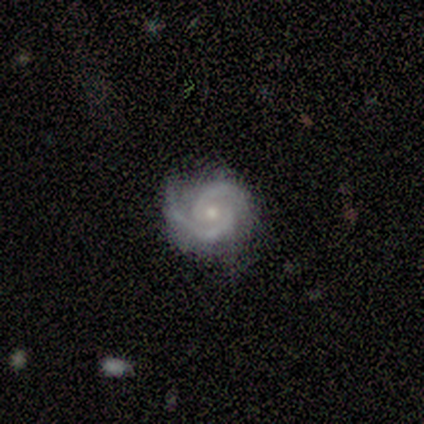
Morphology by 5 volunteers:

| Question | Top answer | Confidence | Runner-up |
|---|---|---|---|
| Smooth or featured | featured or disk | 80% | star or artifact (20%) |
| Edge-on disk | no | 100% | — |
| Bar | weak | 50% | tied: no (50%) |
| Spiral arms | yes | 100% | — |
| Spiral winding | tight | 75% | medium (25%) |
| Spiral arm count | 2 | 100% | — |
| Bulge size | small | 75% | moderate (25%) |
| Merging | none | 75% | minor disturbance (25%) |